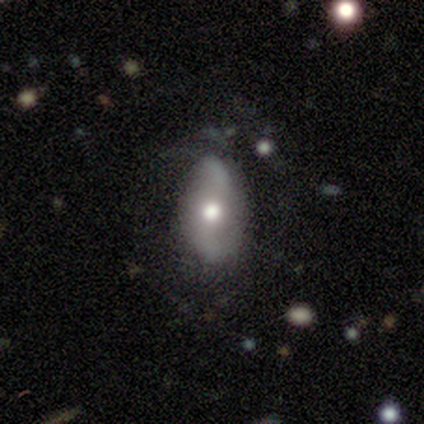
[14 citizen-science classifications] Q: Smooth or featured?
A: featured or disk (64%); runner-up: smooth (21%)
Q: Edge-on disk?
A: no (89%); runner-up: yes (11%)
Q: Bar?
A: no (62%); runner-up: strong (38%)
Q: Spiral arms?
A: yes (75%); runner-up: no (25%)
Q: Spiral winding?
A: medium (50%); tied with: loose (50%)
Q: Spiral arm count?
A: 2 (83%); runner-up: more than 4 (17%)
Q: Bulge size?
A: moderate (75%); runner-up: large (25%)
Q: Merging?
A: none (58%); runner-up: minor disturbance (25%)